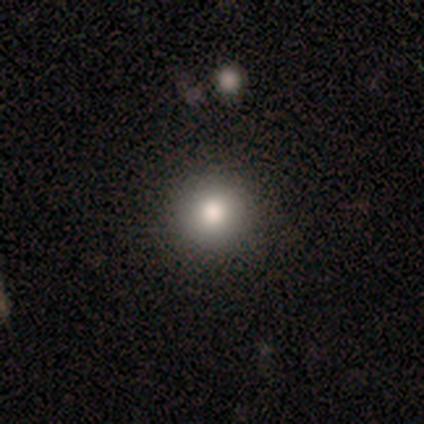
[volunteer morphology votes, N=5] A smooth galaxy with no disk features (60%) that is round (100%).

Vote fractions:
- Smooth or featured? smooth: 60% / featured or disk: 20% / star or artifact: 20%
- How rounded? round: 100% / in between: 0% / cigar-shaped: 0%
- Merging? none: 75% / minor disturbance: 25% / major disturbance: 0% / merger: 0%